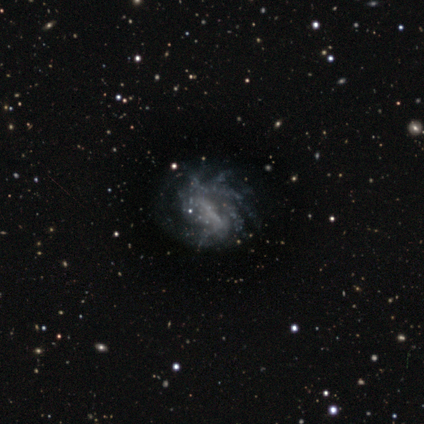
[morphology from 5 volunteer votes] Smooth or featured: featured or disk — 80% (smooth — 20%)
Edge-on disk: no — 100%
Bar: strong — 50% (weak — 25%)
Spiral arms: yes — 50% (tied with no — 50%)
Spiral winding: tight — 50% (tied with medium — 50%)
Spiral arm count: 2 — 50% (tied with more than 4 — 50%)
Bulge size: dominant — 25% (tied with moderate — 25%; small — 25%; none — 25%)
Merging: none — 40% (tied with minor disturbance — 40%)